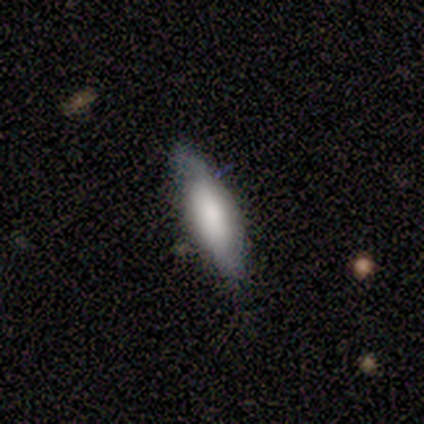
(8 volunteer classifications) A smooth galaxy with no disk features (88%) that is cigar-shaped (71%). Merging: none (86%).